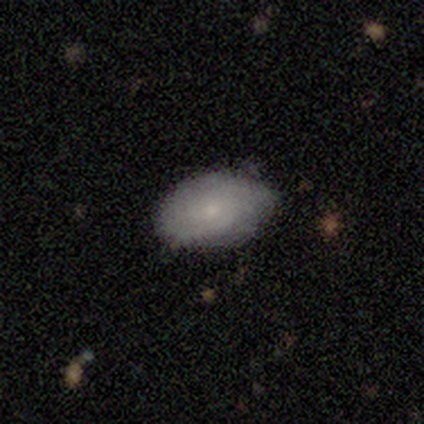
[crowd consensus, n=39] Q: Smooth or featured?
A: smooth (56%); runner-up: featured or disk (33%)
Q: How rounded?
A: in between (95%); runner-up: round (5%)
Q: Merging?
A: none (60%); runner-up: minor disturbance (34%)